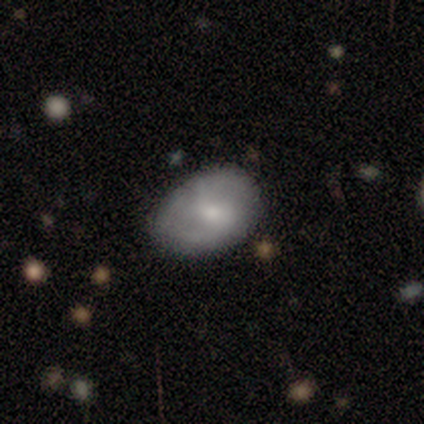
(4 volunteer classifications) smooth_or_featured: featured or disk (p=0.75) [alt: star or artifact p=0.25]
disk_edge_on: no (p=1.00)
bar: weak (p=0.67) [alt: no p=0.33]
has_spiral_arms: no (p=0.67) [alt: yes p=0.33]
bulge_size: small (p=0.67) [alt: moderate p=0.33]
merging: none (p=1.00)